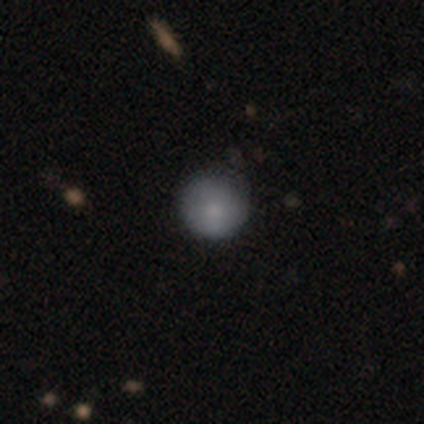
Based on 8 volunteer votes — A smooth galaxy with no disk features (100%) that is round (100%).

Vote fractions:
- Smooth or featured? smooth: 100% / featured or disk: 0% / star or artifact: 0%
- How rounded? round: 100% / in between: 0% / cigar-shaped: 0%
- Merging? none: 88% / minor disturbance: 12% / major disturbance: 0% / merger: 0%